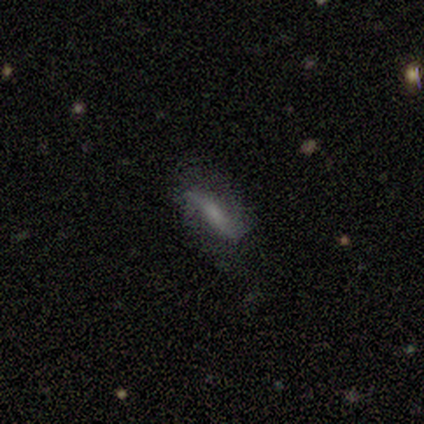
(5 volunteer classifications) This is likely a featured or disk galaxy (60%). It is likely viewed edge-on (67%). Edge-on bulge: possibly boxy (50%, tied with none). Merging: clearly none (80%).